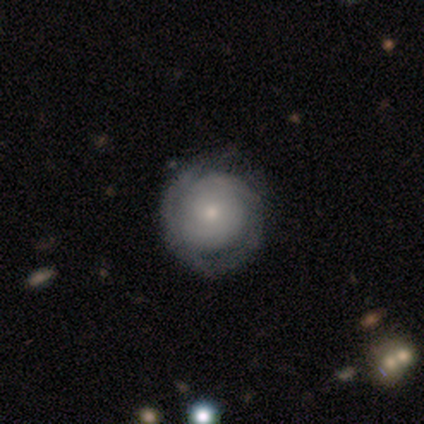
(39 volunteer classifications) Smooth or featured? 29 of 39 (74%) said featured or disk. Edge-on disk? 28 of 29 (97%) said no. Bar? 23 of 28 (82%) said no. Spiral arms? 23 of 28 (82%) said yes. Spiral winding? 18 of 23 (78%) said tight. Spiral arm count? 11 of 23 (48%) said can't tell. Bulge size? 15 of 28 (54%) said moderate. Merging? 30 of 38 (79%) said none.